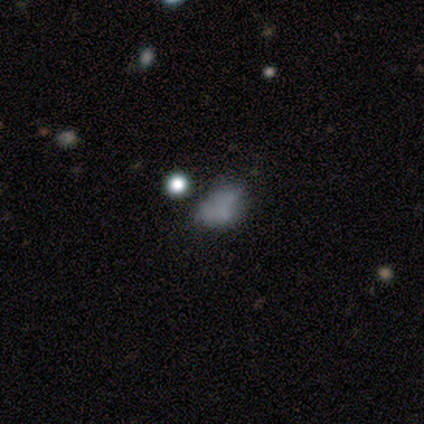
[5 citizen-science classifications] This is clearly a smooth galaxy (80%). How rounded: possibly round (50%, tied with in between). Merging: likely none (60%).